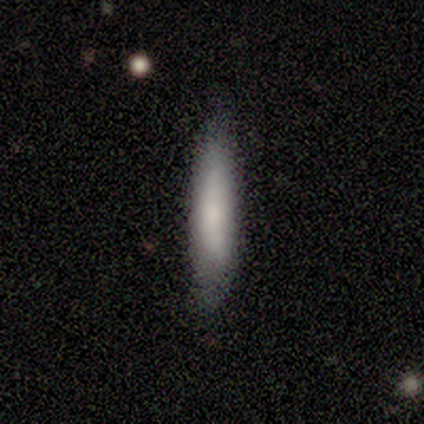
Volunteers were most divided on "how rounded": cigar-shaped: 73%, in between: 27%, round: 0%. More confident: merging — none (92%); smooth or featured — smooth (85%).